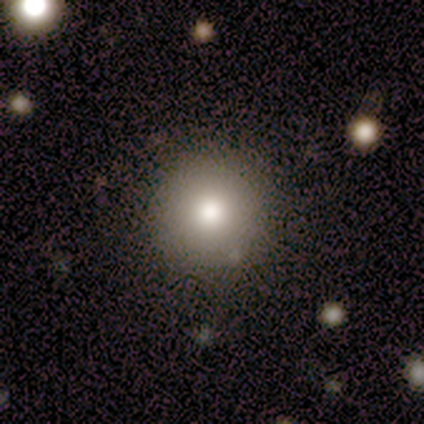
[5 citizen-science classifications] smooth 60%, featured or disk 20%, star or artifact 20%. Down the decision tree: how rounded — round (100%); merging — none (75%).